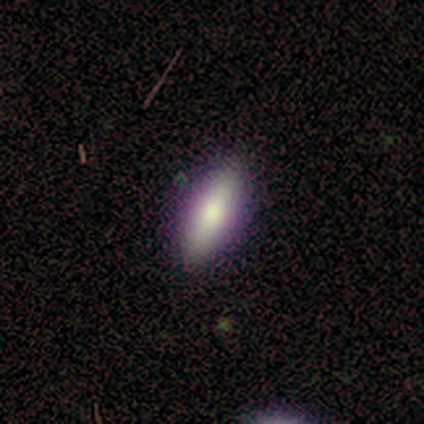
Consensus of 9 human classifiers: Smooth or featured?
  - smooth: 78% *
  - featured or disk: 22%
  - star or artifact: 0%
How rounded?
  - in between: 57% *
  - cigar-shaped: 43%
  - round: 0%
Merging?
  - none: 100% *
  - minor disturbance: 0%
  - major disturbance: 0%
  - merger: 0%